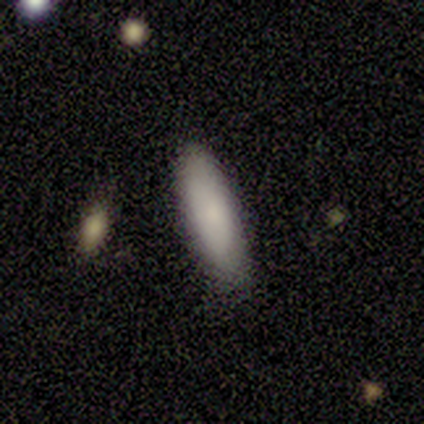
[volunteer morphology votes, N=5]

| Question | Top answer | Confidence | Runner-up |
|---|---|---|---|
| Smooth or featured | smooth | 80% | featured or disk (20%) |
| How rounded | cigar-shaped | 100% | — |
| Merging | none | 80% | minor disturbance (20%) |